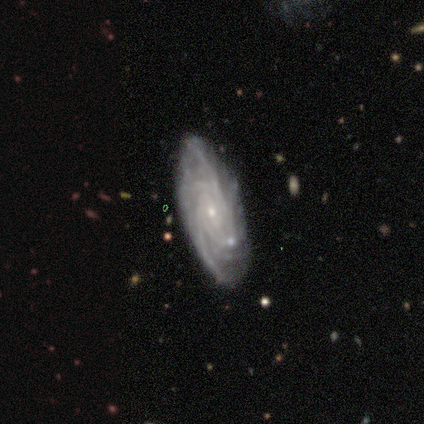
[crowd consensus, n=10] This is clearly a featured or disk galaxy (100%). It is clearly not viewed edge-on (100%). Bar: likely no (60%). Spiral arm pattern: clearly yes (100%). Spiral arm count: marginally can't tell (40%). Spiral winding: clearly tight (80%). Central bulge: clearly small (90%). Merging: clearly none (80%).